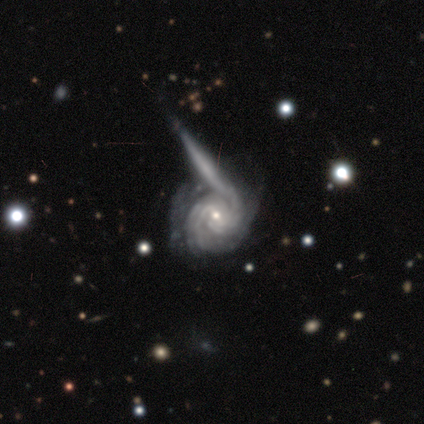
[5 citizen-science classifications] smooth-or-featured: featured or disk: 60% | smooth: 40% | star or artifact: 0%
  disk-edge-on: no: 100% | yes: 0%
    bar: no: 100% | strong: 0% | weak: 0%
    has-spiral-arms: yes: 100% | no: 0%
      spiral-winding: tight: 100% | medium: 0% | loose: 0%
      spiral-arm-count: can't tell: 67% | 2: 33% | 1: 0% | 3: 0% | 4: 0% | more than 4: 0%
    bulge-size: small: 100% | dominant: 0% | large: 0% | moderate: 0% | none: 0%
  merging: none: 40% (tied) | major disturbance: 40% (tied) | minor disturbance: 20% | merger: 0%